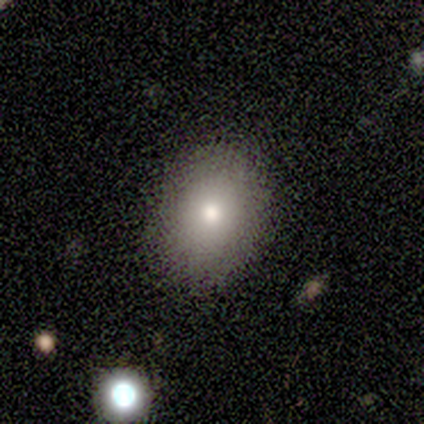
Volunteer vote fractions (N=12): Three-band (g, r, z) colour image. It shows a smooth galaxy with no disk features (92%) that is in between round and cigar-shaped (64%). Merging: none (83%).